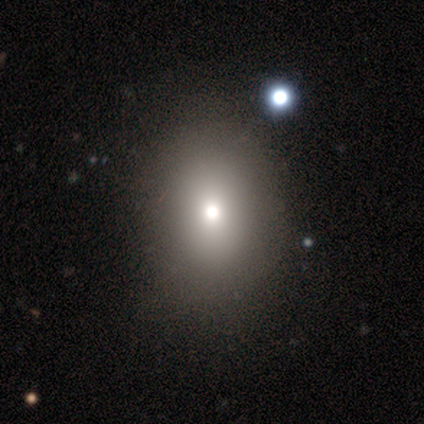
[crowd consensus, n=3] smooth 67%, star or artifact 33%, featured or disk 0%. Down the decision tree: how rounded — in between (100%); merging — none (100%).